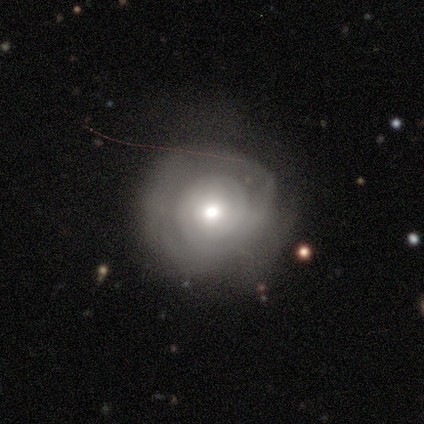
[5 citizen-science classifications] smooth-or-featured: featured or disk: 80% | smooth: 20% | star or artifact: 0%
  disk-edge-on: no: 100% | yes: 0%
    bar: no: 100% | strong: 0% | weak: 0%
    has-spiral-arms: yes: 50% (tied) | no: 50% (tied)
      spiral-winding: tight: 50% (tied) | medium: 50% (tied) | loose: 0%
      spiral-arm-count: 1: 50% (tied) | can't tell: 50% (tied) | 2: 0% | 3: 0% | 4: 0% | more than 4: 0%
    bulge-size: moderate: 100% | dominant: 0% | large: 0% | small: 0% | none: 0%
  merging: none: 80% | minor disturbance: 20% | major disturbance: 0% | merger: 0%